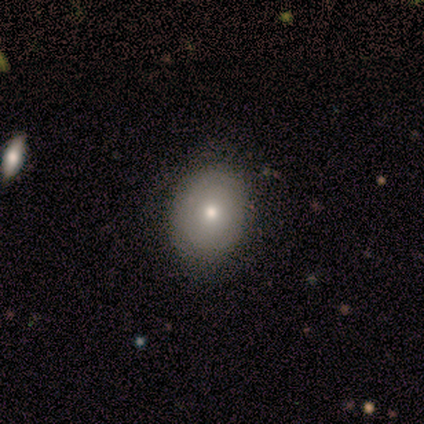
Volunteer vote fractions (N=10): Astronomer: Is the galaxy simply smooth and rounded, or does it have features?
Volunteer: smooth — 60% (runner-up: featured or disk, 40%).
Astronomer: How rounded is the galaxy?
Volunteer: in between — 83%.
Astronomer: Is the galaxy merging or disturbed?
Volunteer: none — 90%.